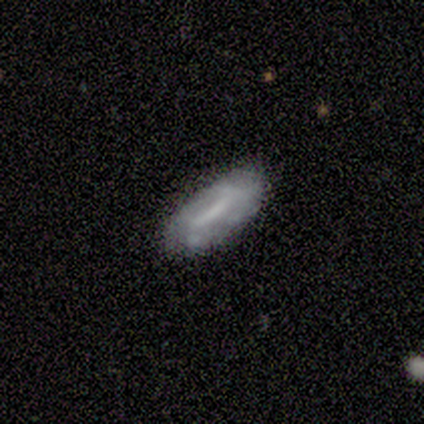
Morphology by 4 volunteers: smooth-or-featured: smooth: 75% | featured or disk: 25% | star or artifact: 0%
  how-rounded: cigar-shaped: 67% | in between: 33% | round: 0%
  merging: none: 75% | minor disturbance: 25% | major disturbance: 0% | merger: 0%